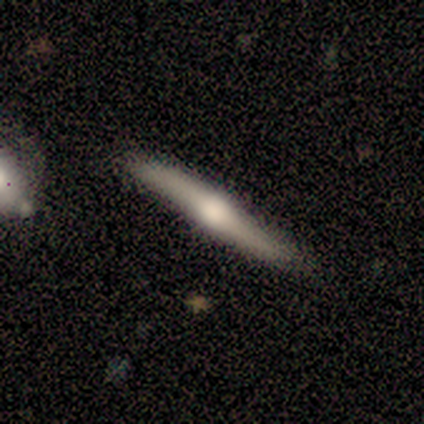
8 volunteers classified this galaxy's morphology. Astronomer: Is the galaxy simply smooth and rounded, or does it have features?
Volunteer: featured or disk — 75%.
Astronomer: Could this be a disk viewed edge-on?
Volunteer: yes — 83%.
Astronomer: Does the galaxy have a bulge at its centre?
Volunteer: rounded — 100%.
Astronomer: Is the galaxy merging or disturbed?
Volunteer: none — 75%.